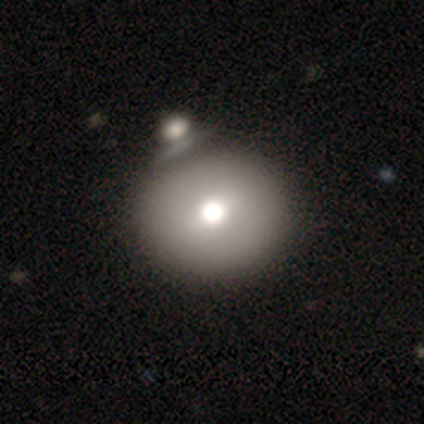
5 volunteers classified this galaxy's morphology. Overall: smooth (100%). How rounded: round (80%). Merging: none (100%).